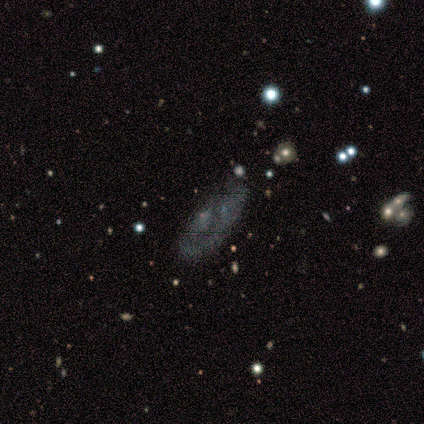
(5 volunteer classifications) Smooth or featured? smooth (80%)
How rounded? in between (100%)
Merging? minor disturbance (75%)